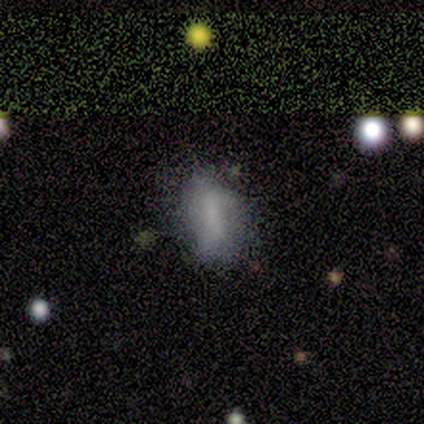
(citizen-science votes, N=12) smooth 83%, featured or disk 17%, star or artifact 0%. Down the decision tree: how rounded — in between (90%); merging — major disturbance (42%).